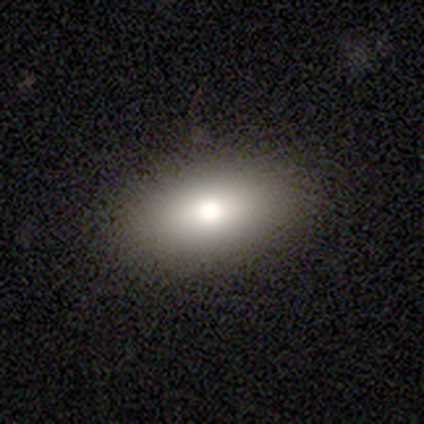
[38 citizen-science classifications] Morphology: type=smooth (82%); roundness=in between (90%); merging=none (86%).